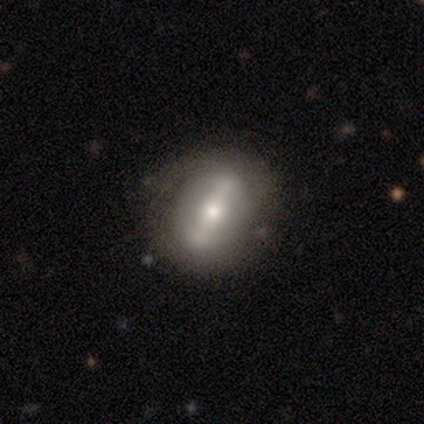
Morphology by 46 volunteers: This is possibly a featured or disk galaxy (48%). It is clearly not viewed edge-on (82%). Bar: likely strong (72%). Spiral arm pattern: possibly no (56%). Central bulge: marginally moderate (39%). Merging: likely none (76%).